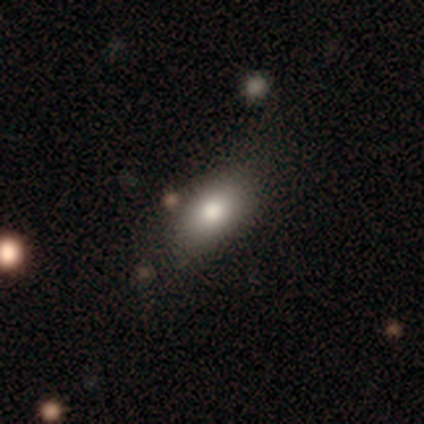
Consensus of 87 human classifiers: Overall: smooth (83%). How rounded: in between (88%). Merging: none (83%).